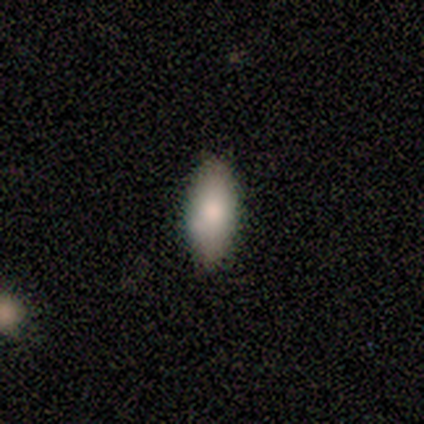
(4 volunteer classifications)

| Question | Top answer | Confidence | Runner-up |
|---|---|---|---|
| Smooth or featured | smooth | 100% | — |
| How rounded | in between | 100% | — |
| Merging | none | 50% | tied: minor disturbance (50%) |